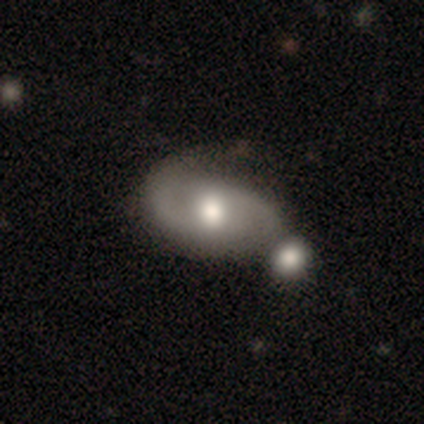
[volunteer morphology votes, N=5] Smooth or featured? 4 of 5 (80%) said featured or disk. Edge-on disk? 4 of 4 (100%) said no. Bar? 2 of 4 (50%, tied with no) said weak. Spiral arms? 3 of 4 (75%) said yes. Spiral winding? 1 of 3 (33%, tied with medium and loose) said tight. Spiral arm count? 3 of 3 (100%) said 2. Bulge size? 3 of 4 (75%) said moderate. Merging? 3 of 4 (75%) said merger.